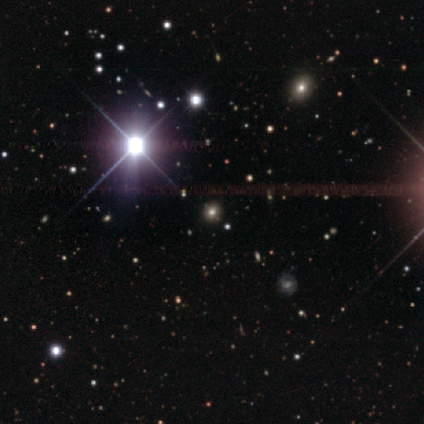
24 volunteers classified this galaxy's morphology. Volunteers were most divided on "smooth or featured": star or artifact: 58%, smooth: 38%, featured or disk: 4%.